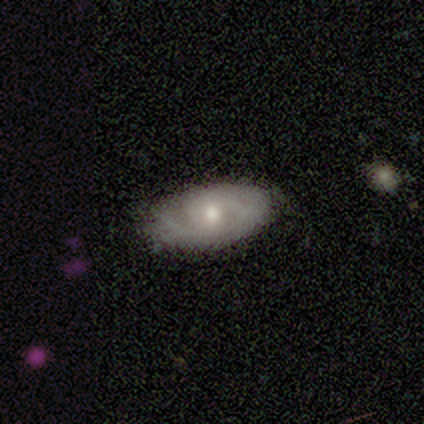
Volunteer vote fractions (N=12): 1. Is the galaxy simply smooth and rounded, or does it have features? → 67% featured or disk, 33% smooth, 0% star or artifact.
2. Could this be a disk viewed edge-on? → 100% no, 0% yes.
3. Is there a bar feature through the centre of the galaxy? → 75% no, 25% weak, 0% strong.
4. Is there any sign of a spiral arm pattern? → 100% yes, 0% no.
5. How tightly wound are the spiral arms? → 88% tight, 12% medium, 0% loose.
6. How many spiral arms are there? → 50% 2, 25% 1, 25% can't tell, 0% 3, 0% 4, 0% more than 4.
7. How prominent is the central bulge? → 62% moderate, 38% small, 0% dominant, 0% large, 0% none.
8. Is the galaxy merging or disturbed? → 50% none (tied), 50% minor disturbance (tied), 0% major disturbance, 0% merger.